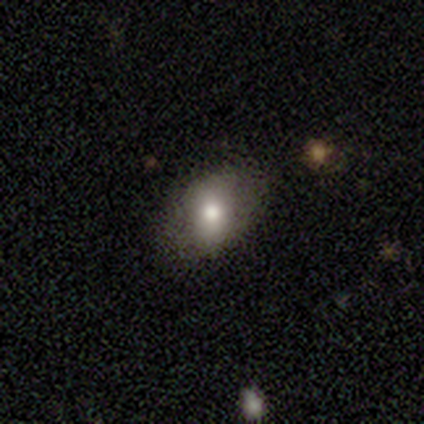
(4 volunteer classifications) This is likely a smooth galaxy (75%). How rounded: likely in between (67%). Merging: likely none (75%).